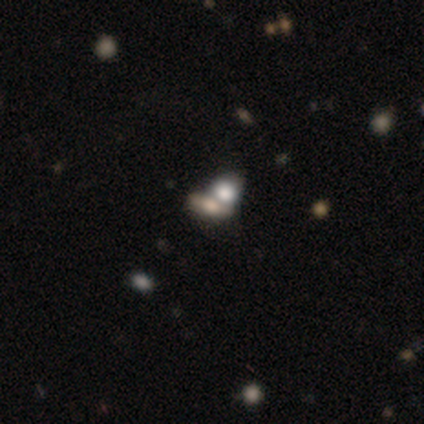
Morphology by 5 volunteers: Smooth or featured? featured or disk (60%)
Edge-on disk? no (67%)
Bar? no (100%)
Spiral arms? no (100%)
Bulge size? dominant (50%, tied with small)
Merging? merger (60%)